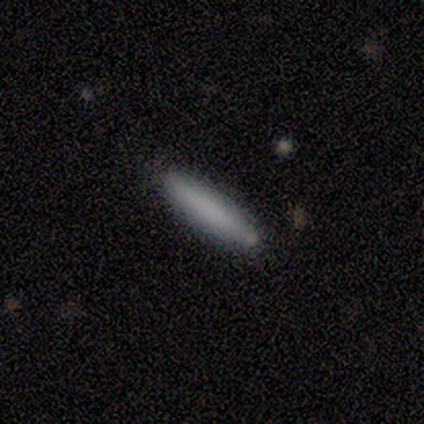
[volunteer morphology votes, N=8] Overall: smooth (88%). How rounded: cigar-shaped (86%). Merging: none (75%).